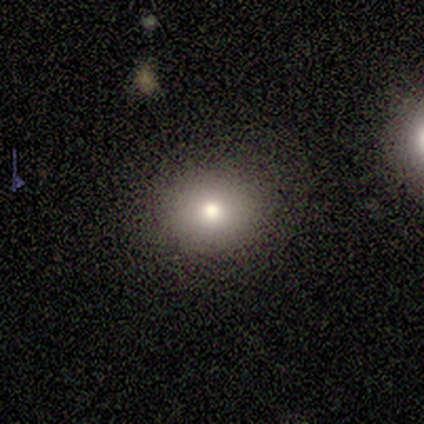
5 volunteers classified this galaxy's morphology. smooth 100%, featured or disk 0%, star or artifact 0%. Down the decision tree: how rounded — round (60%); merging — none (100%).